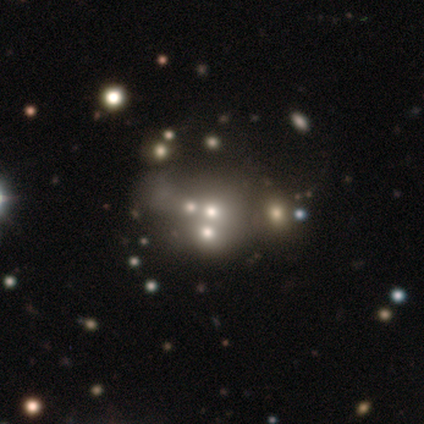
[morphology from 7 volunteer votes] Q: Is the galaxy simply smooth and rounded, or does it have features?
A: star or artifact — 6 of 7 (86%).